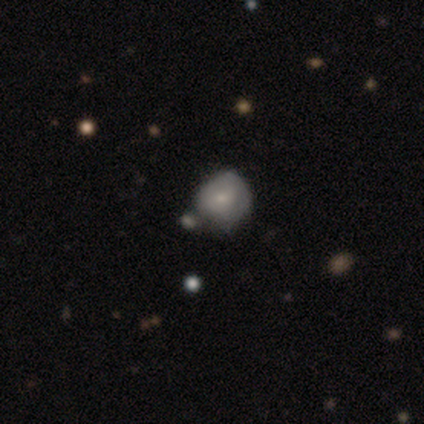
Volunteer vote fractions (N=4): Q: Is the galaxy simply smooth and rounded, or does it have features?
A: featured or disk — 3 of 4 (75%).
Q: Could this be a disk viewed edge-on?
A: no — 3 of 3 (100%).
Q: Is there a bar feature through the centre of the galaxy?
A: no — 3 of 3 (100%).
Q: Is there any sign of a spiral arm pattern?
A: no — 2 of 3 (67%).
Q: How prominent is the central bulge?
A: small — 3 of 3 (100%).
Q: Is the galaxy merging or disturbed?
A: minor disturbance — 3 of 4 (75%).